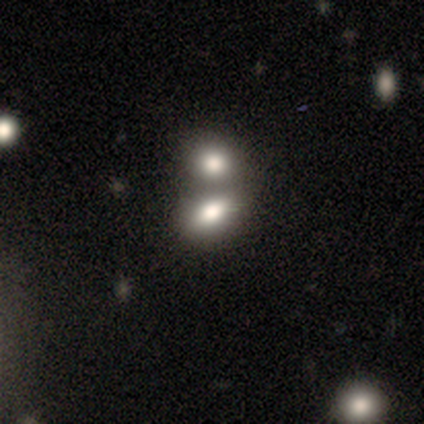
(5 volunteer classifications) A smooth galaxy with no disk features (100%) that is in between round and cigar-shaped (80%).

Vote fractions:
- Smooth or featured? smooth: 100% / featured or disk: 0% / star or artifact: 0%
- How rounded? in between: 80% / round: 20% / cigar-shaped: 0%
- Merging? merger: 40% / none: 20% / minor disturbance: 20% / major disturbance: 20%